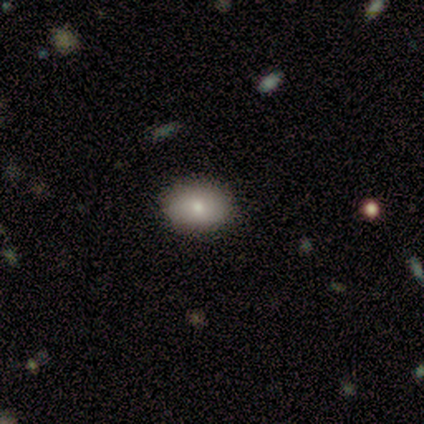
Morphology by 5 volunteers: smooth-or-featured: smooth: 80% | featured or disk: 20% | star or artifact: 0%
  how-rounded: in between: 100% | round: 0% | cigar-shaped: 0%
  merging: none: 60% | minor disturbance: 40% | major disturbance: 0% | merger: 0%